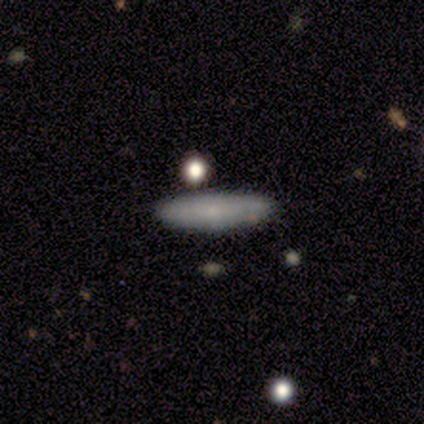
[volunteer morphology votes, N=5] smooth-or-featured: smooth: 40% (tied) | featured or disk: 40% (tied) | star or artifact: 20%
  how-rounded: cigar-shaped: 100% | round: 0% | in between: 0%
  merging: none: 100% | minor disturbance: 0% | major disturbance: 0% | merger: 0%